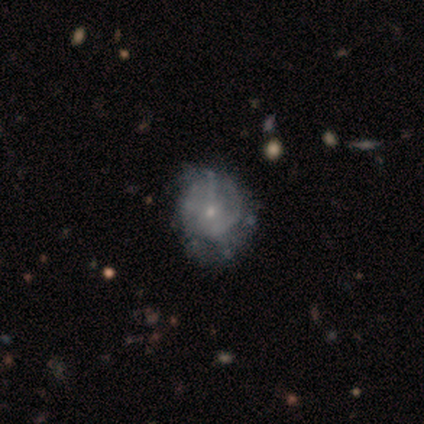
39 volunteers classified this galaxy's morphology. Smooth or featured? 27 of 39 (69%) said featured or disk. Edge-on disk? 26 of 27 (96%) said no. Bar? 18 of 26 (69%) said no. Spiral arms? 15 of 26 (58%) said yes. Spiral winding? 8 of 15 (53%) said medium. Spiral arm count? 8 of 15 (53%) said can't tell. Bulge size? 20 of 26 (77%) said small. Merging? 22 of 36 (61%) said none.